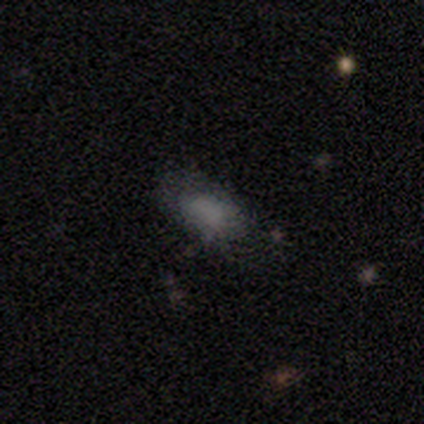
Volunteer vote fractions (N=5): Smooth or featured: smooth — 100%
How rounded: in between — 100%
Merging: none — 60% (minor disturbance — 20%)